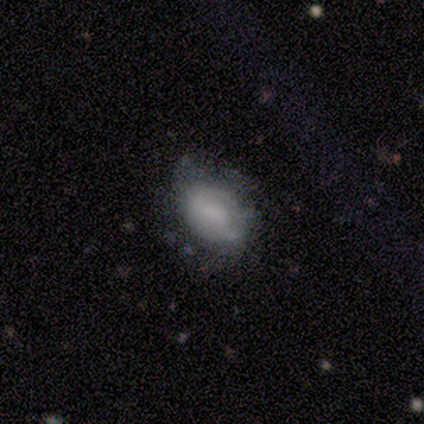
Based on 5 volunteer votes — Overall: smooth (60%; featured or disk 40%). How rounded: in between (67%; cigar-shaped 33%). Merging: none (60%; major disturbance 20%).